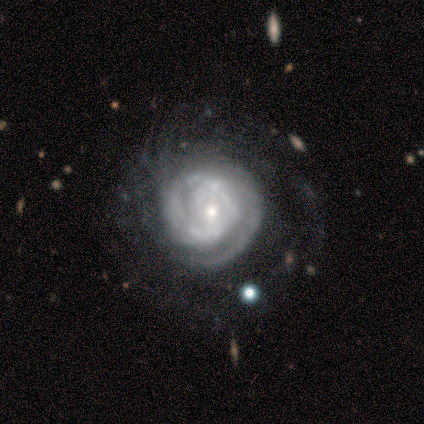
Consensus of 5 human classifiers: smooth_or_featured: featured or disk (p=1.00)
disk_edge_on: no (p=1.00)
bar: no (p=0.60) [alt: weak p=0.40]
has_spiral_arms: yes (p=1.00)
spiral_winding: tight (p=0.60) [alt: loose p=0.40]
spiral_arm_count: 1 (p=0.40) [tied with: 2 p=0.40]
bulge_size: small (p=0.80) [alt: moderate p=0.20]
merging: none (p=0.80) [alt: major disturbance p=0.20]